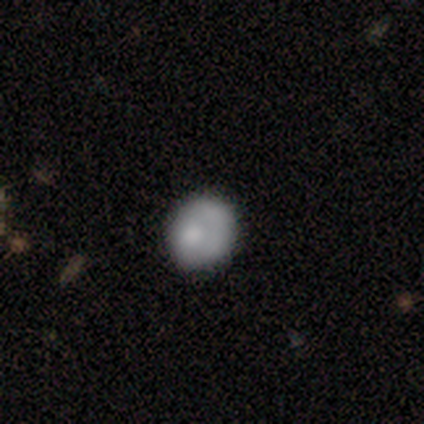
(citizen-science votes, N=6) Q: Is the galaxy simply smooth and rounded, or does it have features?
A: smooth — 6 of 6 (100%).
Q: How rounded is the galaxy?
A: round — 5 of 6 (83%).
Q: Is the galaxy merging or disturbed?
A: none — 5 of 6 (83%).